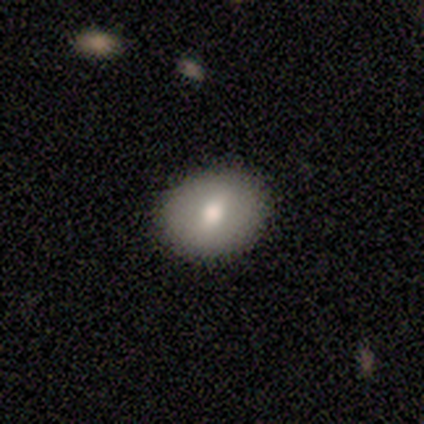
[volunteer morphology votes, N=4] type=smooth (50%, tied with featured or disk); roundness=round (50%, tied with in between); merging=none (100%).